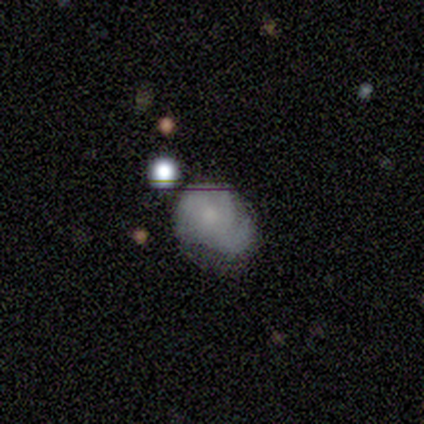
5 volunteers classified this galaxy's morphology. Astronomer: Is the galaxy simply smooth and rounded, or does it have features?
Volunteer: smooth — 60% (runner-up: featured or disk, 40%).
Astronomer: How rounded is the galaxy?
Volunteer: in between — 67%.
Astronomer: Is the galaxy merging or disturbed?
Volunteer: none — 40%, tied with minor disturbance at 40%.